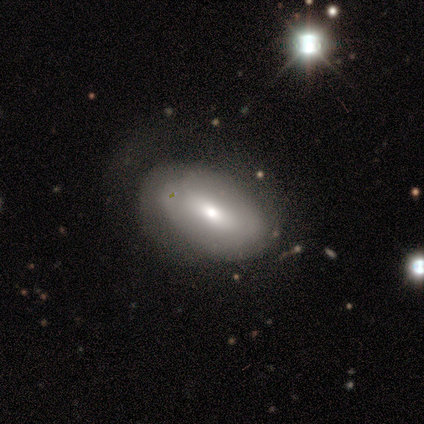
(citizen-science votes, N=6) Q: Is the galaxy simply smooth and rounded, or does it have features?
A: smooth — 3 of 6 (50%, tied with featured or disk).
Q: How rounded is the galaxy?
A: in between — 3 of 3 (100%).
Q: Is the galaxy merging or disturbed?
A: none — 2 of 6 (33%, tied with major disturbance).